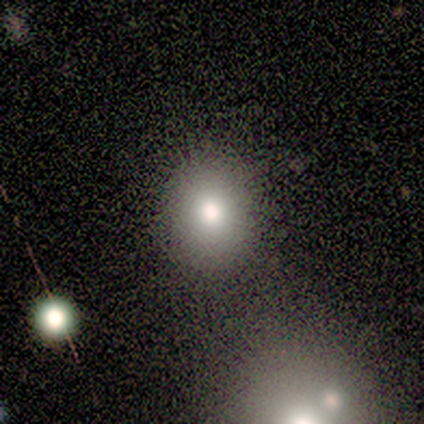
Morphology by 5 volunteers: Volunteers were most divided on "how rounded": round: 75%, in between: 25%, cigar-shaped: 0%. More confident: merging — none (100%); smooth or featured — smooth (80%).